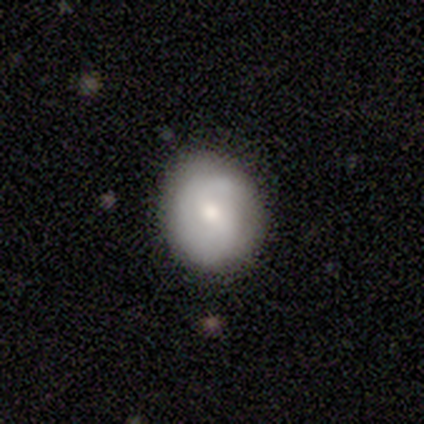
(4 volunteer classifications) A featured or disk galaxy (75%) with no bar (67%), no spiral arms (67%) and a moderate central bulge (67%). Merging: none (100%).